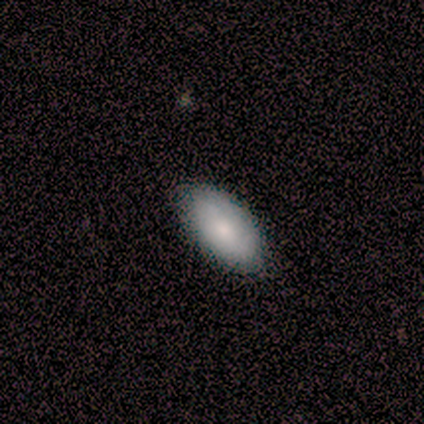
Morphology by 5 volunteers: Smooth or featured? 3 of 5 (60%) said smooth. How rounded? 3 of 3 (100%) said in between. Merging? 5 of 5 (100%) said none.